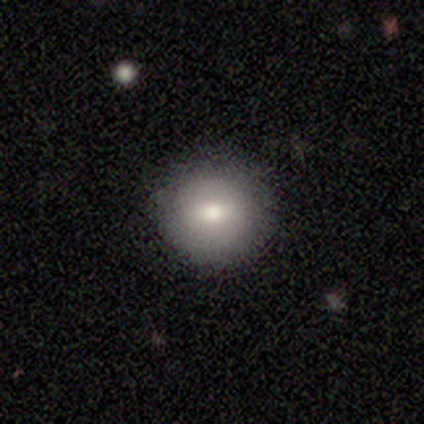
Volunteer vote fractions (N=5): Smooth or featured: featured or disk — 60% (smooth — 40%)
Edge-on disk: no — 100%
Bar: strong — 33% (tied with weak — 33%; no — 33%)
Spiral arms: no — 67% (yes — 33%)
Bulge size: moderate — 67% (small — 33%)
Merging: none — 100%